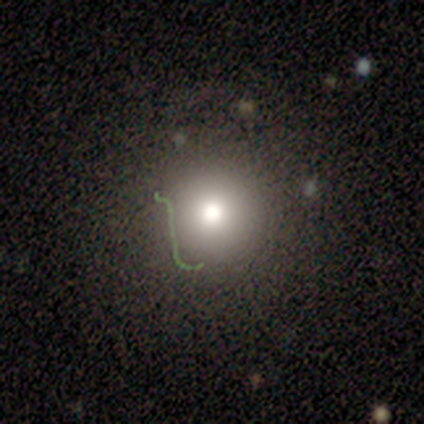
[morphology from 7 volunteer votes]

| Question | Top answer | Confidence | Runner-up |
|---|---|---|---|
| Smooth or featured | smooth | 57% | star or artifact (29%) |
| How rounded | round | 100% | — |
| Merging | none | 100% | — |